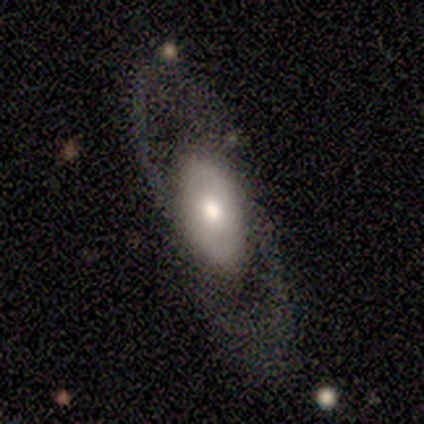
Smooth or featured?
  - featured or disk: 60% *
  - smooth: 40%
  - star or artifact: 0%
Edge-on disk?
  - no: 67% *
  - yes: 33%
Bar?
  - strong: 50% * (tied)
  - no: 50% * (tied)
  - weak: 0%
Spiral arms?
  - no: 100% *
  - yes: 0%
Bulge size?
  - moderate: 50% * (tied)
  - small: 50% * (tied)
  - dominant: 0%
  - large: 0%
  - none: 0%
Merging?
  - none: 60% *
  - minor disturbance: 20%
  - major disturbance: 20%
  - merger: 0%